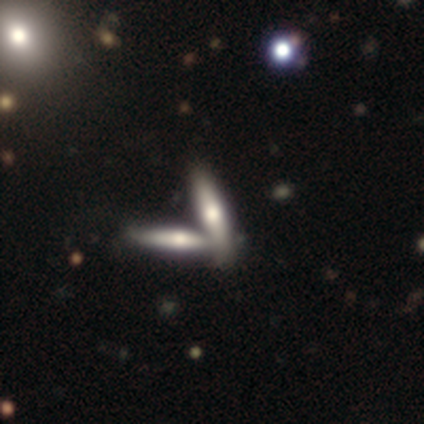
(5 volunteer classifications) A smooth galaxy with no disk features (40%, tied with featured or disk) that is cigar-shaped (100%). Merging: merger (75%).